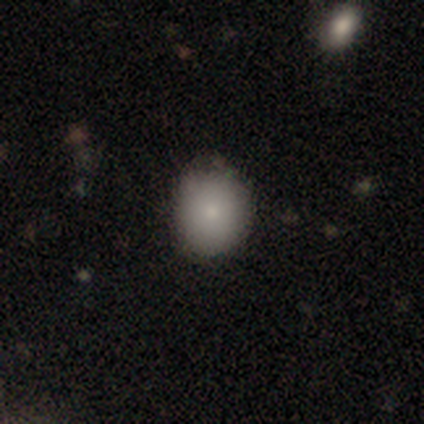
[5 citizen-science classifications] A smooth galaxy with no disk features (80%) that is round (50%, tied with in between).

Vote fractions:
- Smooth or featured? smooth: 80% / star or artifact: 20% / featured or disk: 0%
- How rounded? round: 50% (tied) / in between: 50% (tied) / cigar-shaped: 0%
- Merging? none: 75% / minor disturbance: 25% / major disturbance: 0% / merger: 0%